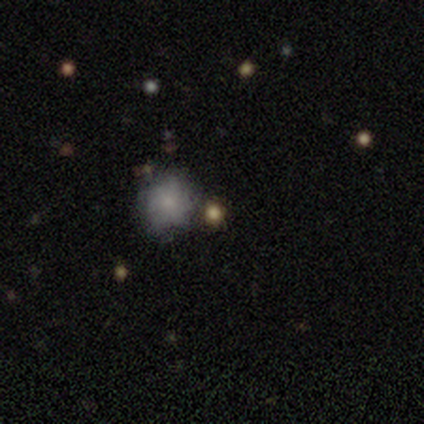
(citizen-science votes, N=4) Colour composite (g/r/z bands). It shows a smooth galaxy with no disk features (75%) that is round (67%). Merging: minor disturbance (75%).